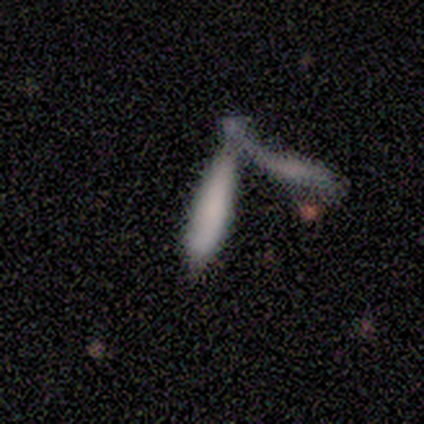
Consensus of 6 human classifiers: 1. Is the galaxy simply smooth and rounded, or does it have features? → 83% smooth, 17% featured or disk, 0% star or artifact.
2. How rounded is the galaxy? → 80% cigar-shaped, 20% in between, 0% round.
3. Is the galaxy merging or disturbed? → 100% merger, 0% none, 0% minor disturbance, 0% major disturbance.